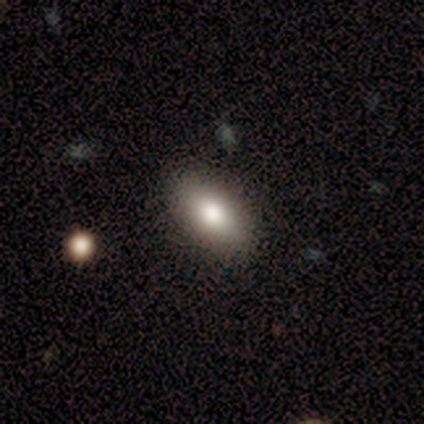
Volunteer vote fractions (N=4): Smooth or featured? 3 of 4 (75%) said smooth. How rounded? 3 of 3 (100%) said in between. Merging? 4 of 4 (100%) said none.